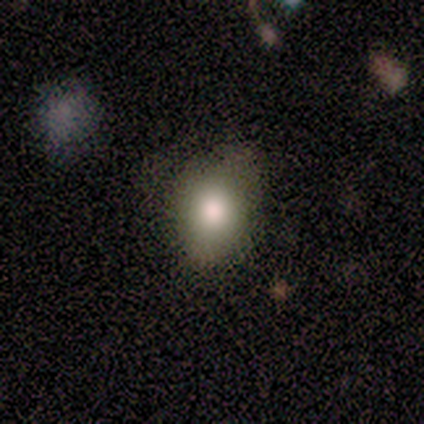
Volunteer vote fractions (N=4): This appears to be a smooth galaxy with no disk features (75%) that is in between round and cigar-shaped (100%). Merging: none (100%).